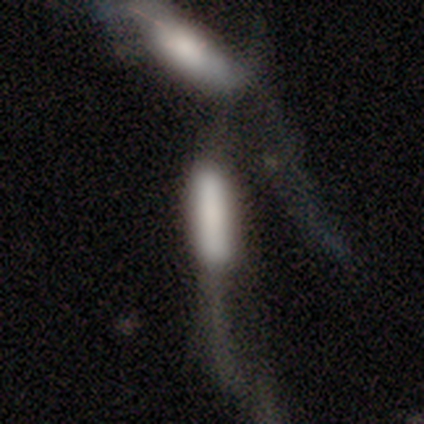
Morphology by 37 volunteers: Smooth or featured? 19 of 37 (51%) said smooth. How rounded? 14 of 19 (74%) said cigar-shaped. Merging? 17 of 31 (55%) said merger.